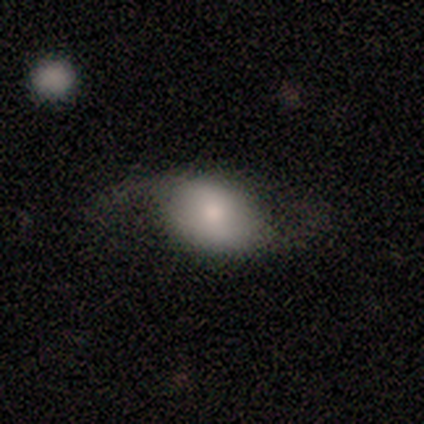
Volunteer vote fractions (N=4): A featured or disk galaxy (50%) with a weak bar (50%, tied with no), 2 (100%) loose (100%) spiral arms (100%) and a moderate central bulge (100%). Merging: major disturbance (67%).